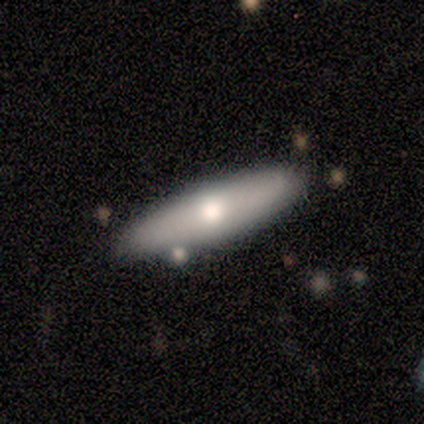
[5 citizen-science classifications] smooth_or_featured: smooth (p=0.60) [alt: featured or disk p=0.20]
how_rounded: in between (p=0.67) [alt: cigar-shaped p=0.33]
merging: none (p=1.00)